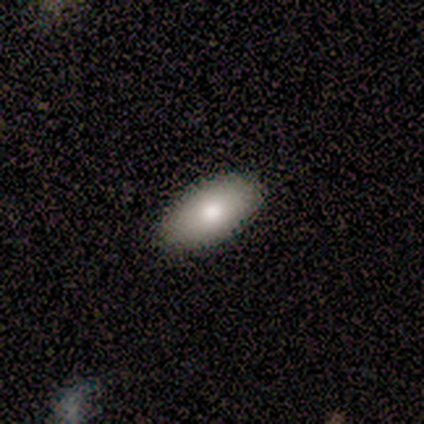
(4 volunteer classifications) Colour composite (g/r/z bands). It shows a smooth galaxy with no disk features (75%) that is in between round and cigar-shaped (100%). Merging: none (100%).